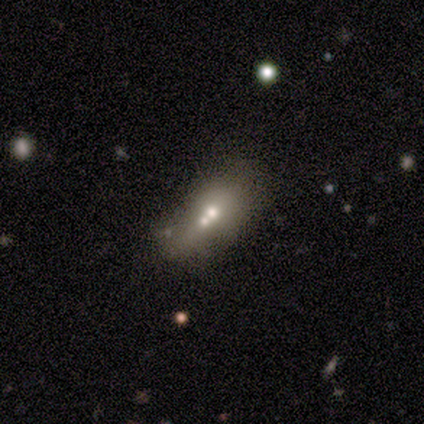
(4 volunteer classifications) smooth 75%, star or artifact 25%, featured or disk 0%. Down the decision tree: how rounded — in between (67%); merging — merger (67%).